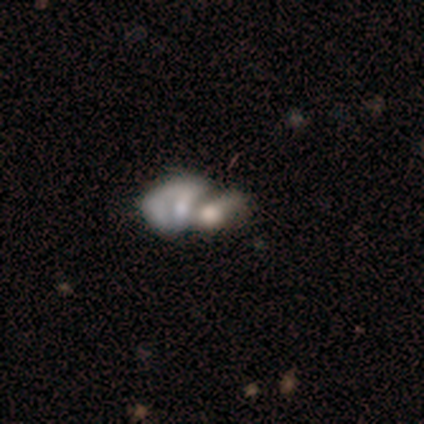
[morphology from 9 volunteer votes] Volunteers were most divided on "smooth or featured": smooth: 44%, featured or disk: 33%, star or artifact: 22%. More confident: how rounded — in between (100%); merging — merger (71%).